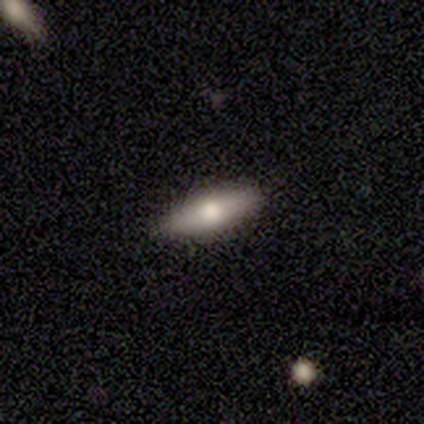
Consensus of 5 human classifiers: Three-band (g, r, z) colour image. It shows a smooth galaxy with no disk features (40%, tied with star or artifact) that is in between round and cigar-shaped (100%). Merging: none (100%).